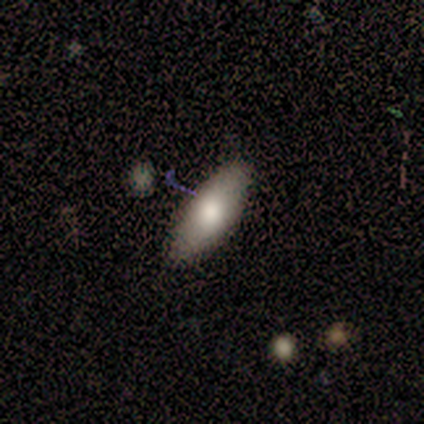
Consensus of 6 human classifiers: This is clearly a smooth galaxy (100%). How rounded: clearly in between (100%). Merging: likely none (67%).